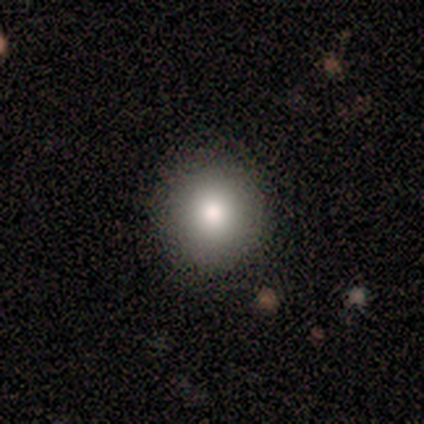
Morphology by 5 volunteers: Overall: smooth (40%, tied with featured or disk). How rounded: round (100%). Merging: none (100%).